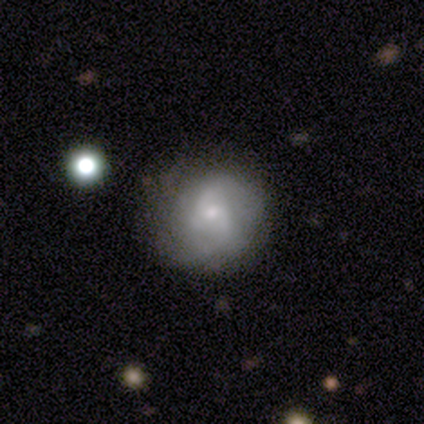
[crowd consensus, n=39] smooth-or-featured: featured or disk: 64% | smooth: 28% | star or artifact: 8%
  disk-edge-on: no: 96% | yes: 4%
    bar: no: 71% | weak: 25% | strong: 4%
    has-spiral-arms: yes: 88% | no: 12%
      spiral-winding: tight: 48% | medium: 38% | loose: 14%
      spiral-arm-count: can't tell: 57% | 3: 29% | 2: 10% | 4: 5% | 1: 0% | more than 4: 0%
    bulge-size: small: 50% | moderate: 38% | none: 12% | dominant: 0% | large: 0%
  merging: none: 75% | minor disturbance: 22% | major disturbance: 3% | merger: 0%